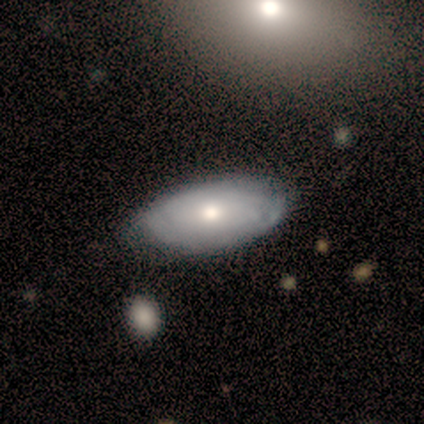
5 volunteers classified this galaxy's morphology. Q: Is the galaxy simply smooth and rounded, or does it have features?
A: smooth — 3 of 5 (60%).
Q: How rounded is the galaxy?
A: in between — 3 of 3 (100%).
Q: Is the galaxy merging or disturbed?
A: none — 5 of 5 (100%).